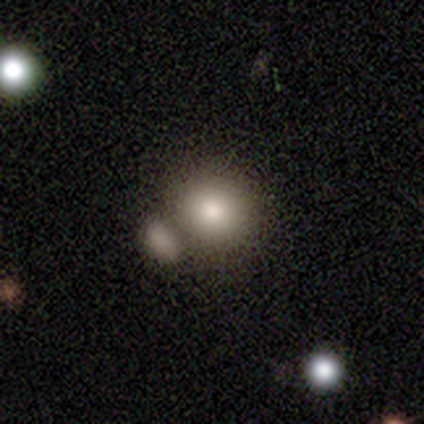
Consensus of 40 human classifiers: Smooth or featured? smooth (75%)
How rounded? round (70%)
Merging? merger (49%)